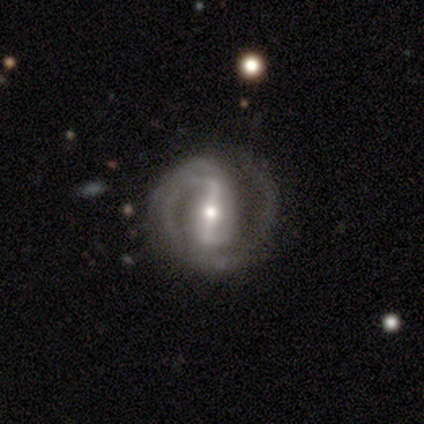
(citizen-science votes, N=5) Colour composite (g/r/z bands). It shows a featured or disk galaxy (100%) with a strong bar (100%), 2 (80%) tight (80%) spiral arms (100%) and a moderate central bulge (60%). Merging: none (100%).